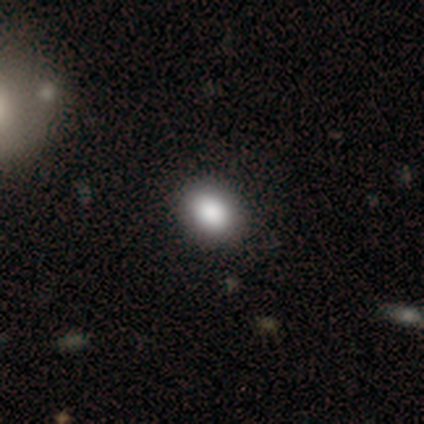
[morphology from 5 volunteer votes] smooth 100%, featured or disk 0%, star or artifact 0%. Down the decision tree: how rounded — in between (60%); merging — none (80%).